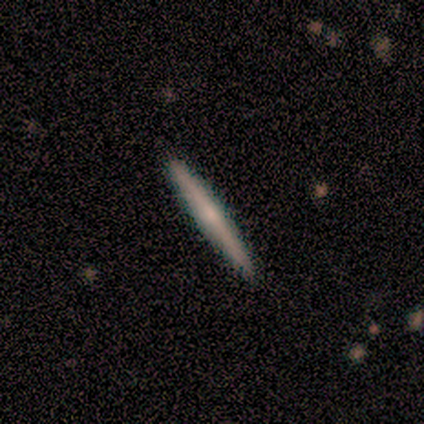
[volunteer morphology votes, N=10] smooth_or_featured: featured or disk (p=0.60) [alt: smooth p=0.30]
disk_edge_on: yes (p=1.00)
edge_on_bulge: none (p=0.50) [alt: rounded p=0.33]
merging: none (p=0.89) [alt: minor disturbance p=0.11]